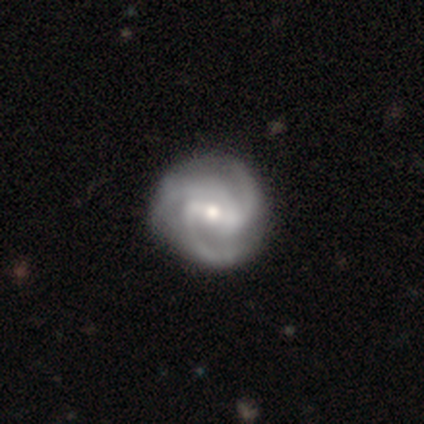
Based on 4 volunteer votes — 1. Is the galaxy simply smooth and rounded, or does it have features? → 75% featured or disk, 25% smooth, 0% star or artifact.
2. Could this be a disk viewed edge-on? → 100% no, 0% yes.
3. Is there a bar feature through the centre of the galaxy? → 33% strong (tied), 33% weak (tied), 33% no (tied).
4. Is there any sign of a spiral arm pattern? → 100% yes, 0% no.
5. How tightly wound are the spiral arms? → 67% medium, 33% tight, 0% loose.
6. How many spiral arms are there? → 67% 3, 33% 2, 0% 1, 0% 4, 0% more than 4, 0% can't tell.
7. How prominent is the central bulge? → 67% small, 33% moderate, 0% dominant, 0% large, 0% none.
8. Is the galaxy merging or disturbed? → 100% none, 0% minor disturbance, 0% major disturbance, 0% merger.